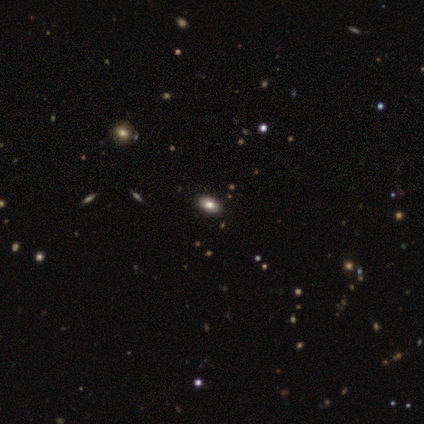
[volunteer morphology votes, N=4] type=smooth (50%, tied with featured or disk); roundness=in between (100%); merging=none (100%).